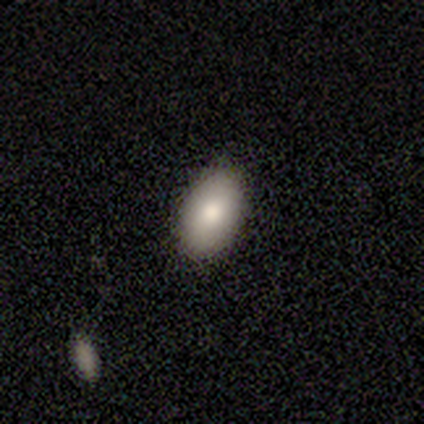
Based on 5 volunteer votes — Overall: smooth (60%; featured or disk 20%). How rounded: in between (100%). Merging: none (50%, tied with minor disturbance).